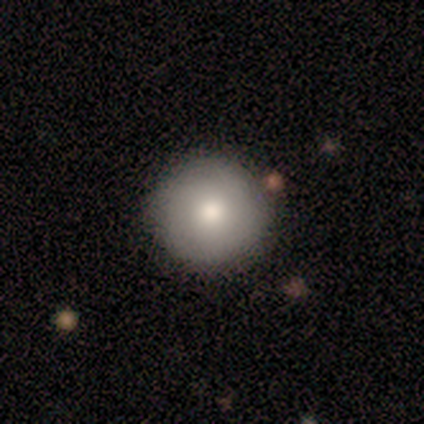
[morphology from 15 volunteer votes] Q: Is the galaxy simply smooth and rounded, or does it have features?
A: smooth — 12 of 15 (80%).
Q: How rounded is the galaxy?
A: round — 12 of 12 (100%).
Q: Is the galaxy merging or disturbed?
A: none — 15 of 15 (100%).